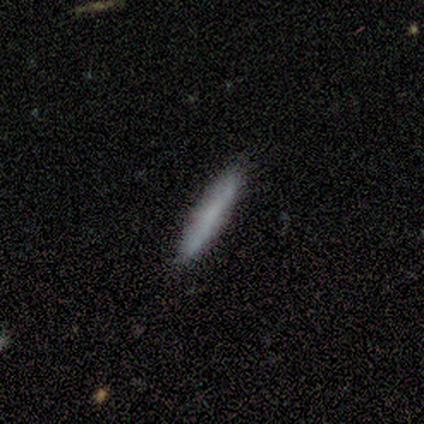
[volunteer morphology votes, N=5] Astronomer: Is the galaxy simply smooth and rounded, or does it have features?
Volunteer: smooth — 60% (runner-up: featured or disk, 40%).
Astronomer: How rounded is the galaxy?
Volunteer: cigar-shaped — 100%.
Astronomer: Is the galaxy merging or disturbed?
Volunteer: none — 40%, tied with minor disturbance at 40%.